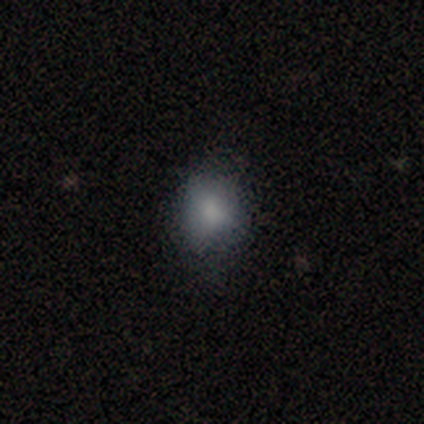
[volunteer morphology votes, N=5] Smooth or featured? 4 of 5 (80%) said smooth. How rounded? 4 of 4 (100%) said round. Merging? 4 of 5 (80%) said none.